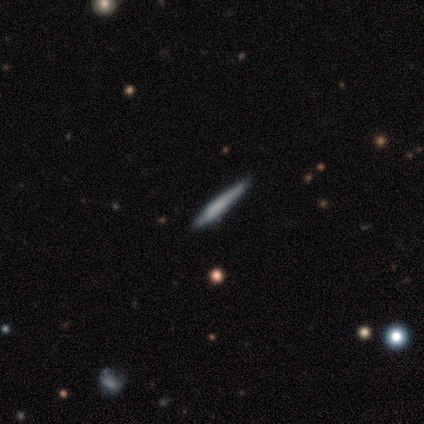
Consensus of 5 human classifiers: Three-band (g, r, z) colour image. It shows a smooth galaxy with no disk features (80%) that is cigar-shaped (75%). Merging: none (80%).